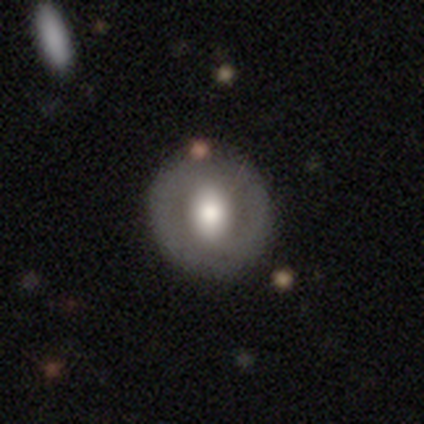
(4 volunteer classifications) Q: Smooth or featured?
A: smooth (50%); tied with: featured or disk (50%)
Q: How rounded?
A: round (50%); tied with: in between (50%)
Q: Merging?
A: none (100%)